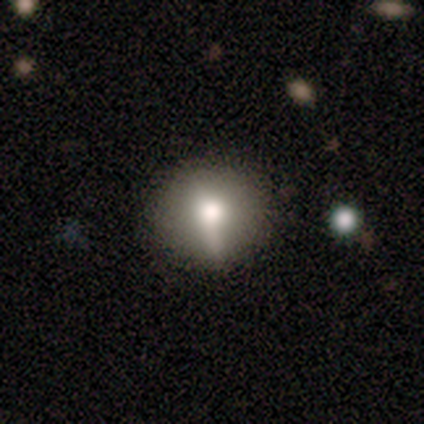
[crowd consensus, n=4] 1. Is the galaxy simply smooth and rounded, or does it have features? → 50% smooth, 25% featured or disk, 25% star or artifact.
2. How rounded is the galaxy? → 100% round, 0% in between, 0% cigar-shaped.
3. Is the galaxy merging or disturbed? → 33% none (tied), 33% minor disturbance (tied), 33% major disturbance (tied), 0% merger.